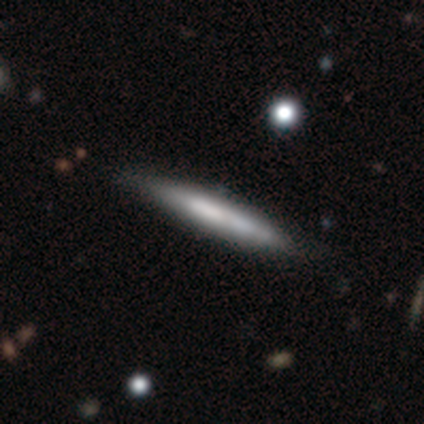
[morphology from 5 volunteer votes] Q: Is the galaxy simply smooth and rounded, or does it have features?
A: smooth — 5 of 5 (100%).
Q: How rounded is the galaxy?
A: cigar-shaped — 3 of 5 (60%).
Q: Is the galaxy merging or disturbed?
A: none — 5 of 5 (100%).